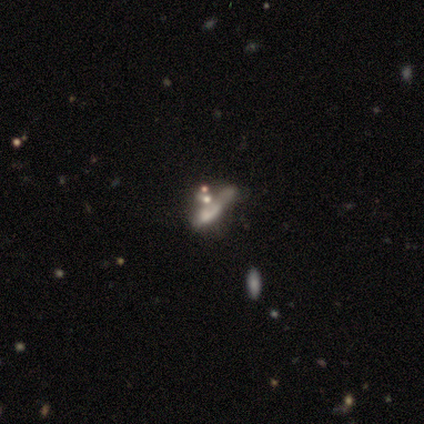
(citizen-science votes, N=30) Smooth or featured? 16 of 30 (53%) said smooth. How rounded? 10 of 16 (62%) said cigar-shaped. Merging? 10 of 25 (40%) said merger.